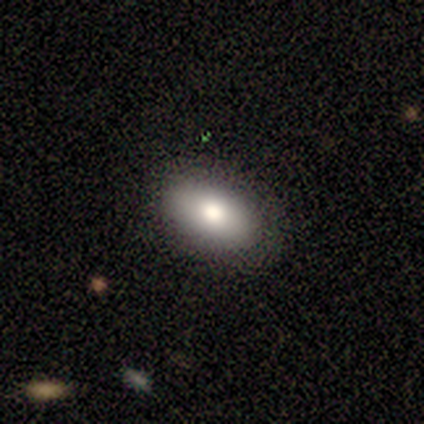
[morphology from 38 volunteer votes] Volunteers were most divided on "smooth or featured": smooth: 76%, featured or disk: 18%, star or artifact: 5%. More confident: how rounded — in between (90%); merging — none (86%).